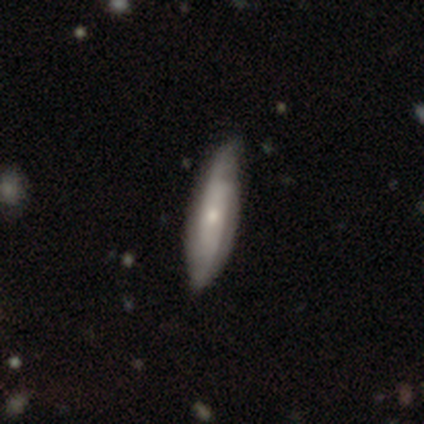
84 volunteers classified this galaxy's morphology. Smooth or featured? featured or disk (52%)
Edge-on disk? no (68%)
Bar? no (77%)
Spiral arms? yes (87%)
Spiral winding? tight (42%)
Spiral arm count? can't tell (54%)
Bulge size? small (73%)
Merging? none (69%)